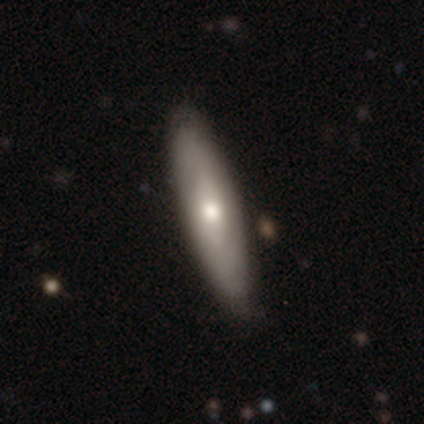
A smooth galaxy with no disk features (51%) that is cigar-shaped (68%).

Vote fractions:
- Smooth or featured? smooth: 51% / featured or disk: 48% / star or artifact: 1%
- How rounded? cigar-shaped: 68% / in between: 32% / round: 0%
- Merging? none: 80% / minor disturbance: 14% / major disturbance: 3% / merger: 2%